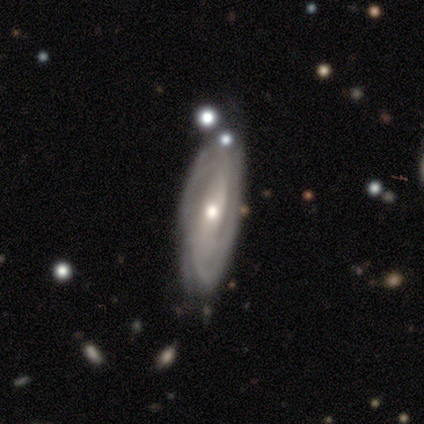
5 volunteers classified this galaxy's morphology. smooth-or-featured: featured or disk: 100% | smooth: 0% | star or artifact: 0%
  disk-edge-on: no: 80% | yes: 20%
    bar: weak: 75% | strong: 25% | no: 0%
    has-spiral-arms: yes: 100% | no: 0%
      spiral-winding: tight: 50% (tied) | loose: 50% (tied) | medium: 0%
      spiral-arm-count: can't tell: 100% | 1: 0% | 2: 0% | 3: 0% | 4: 0% | more than 4: 0%
    bulge-size: moderate: 75% | small: 25% | dominant: 0% | large: 0% | none: 0%
  merging: none: 60% | minor disturbance: 20% | major disturbance: 20% | merger: 0%